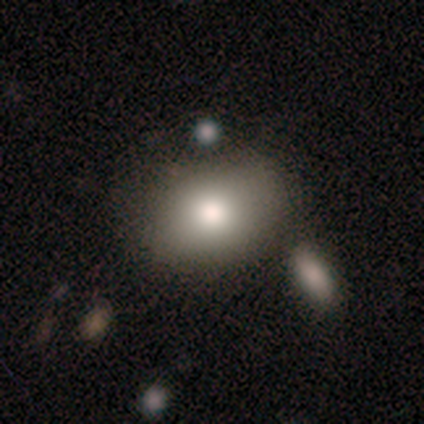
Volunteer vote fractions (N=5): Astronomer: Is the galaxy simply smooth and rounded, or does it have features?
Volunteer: smooth — 60%.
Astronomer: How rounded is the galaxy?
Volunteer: in between — 67%.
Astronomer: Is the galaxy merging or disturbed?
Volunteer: none — 50%, tied with minor disturbance at 50%.